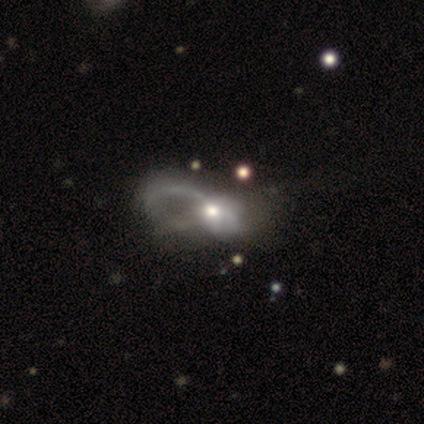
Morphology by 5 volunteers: Volunteers were most divided on "spiral winding": loose: 67%, medium: 33%, tight: 0%. More confident: edge-on disk — no (100%); bar — no (100%); smooth or featured — featured or disk (80%); spiral arms — yes (75%); bulge size — moderate (75%); merging — major disturbance (75%); spiral arm count — 2 (67%).